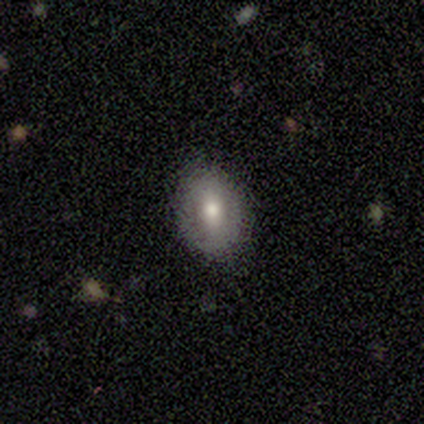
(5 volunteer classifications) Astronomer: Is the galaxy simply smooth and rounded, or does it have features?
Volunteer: smooth — 60% (runner-up: featured or disk, 40%).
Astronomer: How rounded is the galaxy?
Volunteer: in between — 67%.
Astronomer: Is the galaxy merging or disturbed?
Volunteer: minor disturbance — 60% (runner-up: none, 40%).